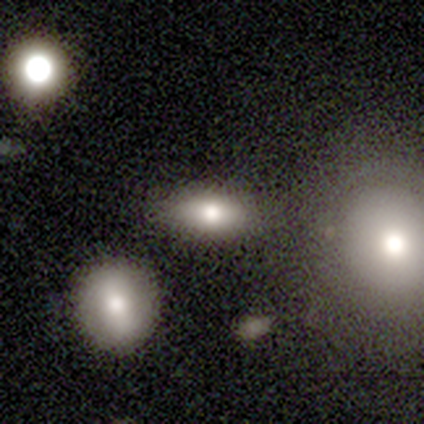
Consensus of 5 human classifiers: Q: Smooth or featured?
A: smooth (100%)
Q: How rounded?
A: in between (100%)
Q: Merging?
A: none (100%)